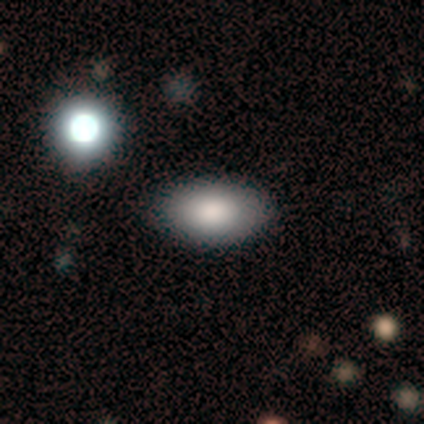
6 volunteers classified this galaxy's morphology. Smooth or featured? smooth (50%, tied with star or artifact)
How rounded? in between (100%)
Merging? none (67%)